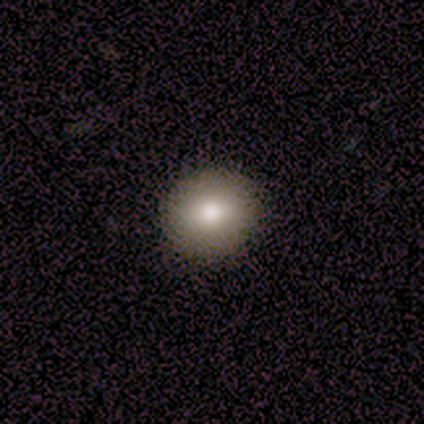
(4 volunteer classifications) Q: Smooth or featured?
A: smooth (100%)
Q: How rounded?
A: round (75%); runner-up: in between (25%)
Q: Merging?
A: none (100%)